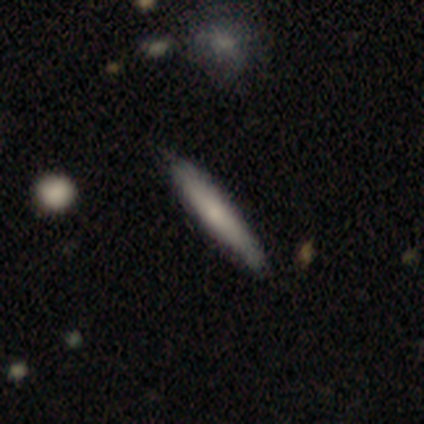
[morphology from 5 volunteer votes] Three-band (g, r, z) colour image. It shows a smooth galaxy with no disk features (80%) that is cigar-shaped (100%). Merging: none (80%).